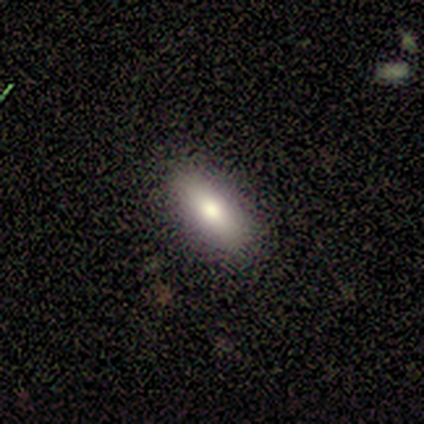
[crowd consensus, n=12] smooth 100%, featured or disk 0%, star or artifact 0%. Down the decision tree: how rounded — in between (67%); merging — none (92%).